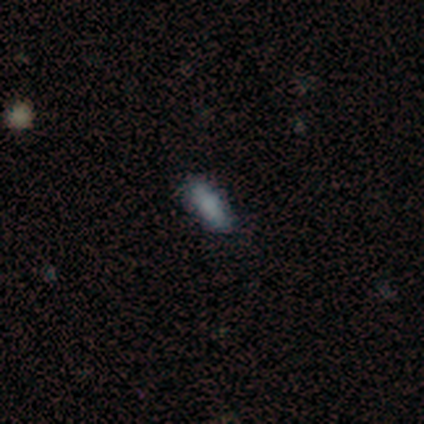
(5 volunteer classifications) Volunteers were most divided on "how rounded" (2-way tie): in between: 50%, cigar-shaped: 50%, round: 0%. More confident: smooth or featured — smooth (80%); merging — none (80%).